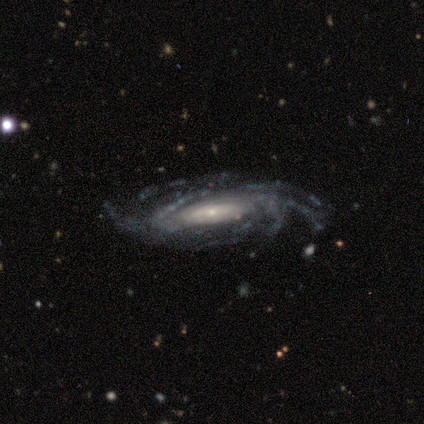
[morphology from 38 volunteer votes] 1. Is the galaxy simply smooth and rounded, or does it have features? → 97% featured or disk, 3% smooth, 0% star or artifact.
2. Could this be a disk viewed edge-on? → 89% no, 11% yes.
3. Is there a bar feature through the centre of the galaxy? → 55% no, 24% weak, 21% strong.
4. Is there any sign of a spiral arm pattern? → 100% yes, 0% no.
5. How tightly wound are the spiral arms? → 48% tight, 39% medium, 12% loose.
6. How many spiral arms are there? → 52% more than 4, 18% 4, 15% 3, 15% can't tell, 0% 1, 0% 2.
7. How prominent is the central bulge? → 64% small, 24% moderate, 12% large, 0% dominant, 0% none.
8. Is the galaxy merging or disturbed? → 79% none, 11% major disturbance, 8% minor disturbance, 3% merger.